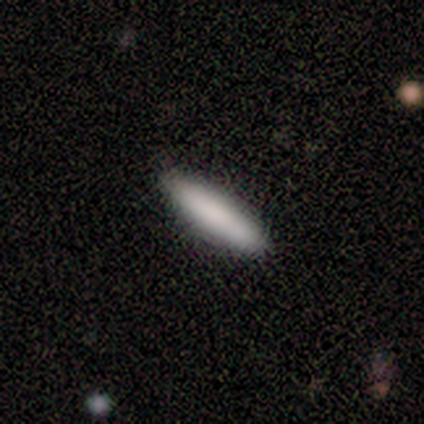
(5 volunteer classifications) A smooth galaxy with no disk features (100%) that is cigar-shaped (60%).

Vote fractions:
- Smooth or featured? smooth: 100% / featured or disk: 0% / star or artifact: 0%
- How rounded? cigar-shaped: 60% / in between: 40% / round: 0%
- Merging? none: 100% / minor disturbance: 0% / major disturbance: 0% / merger: 0%